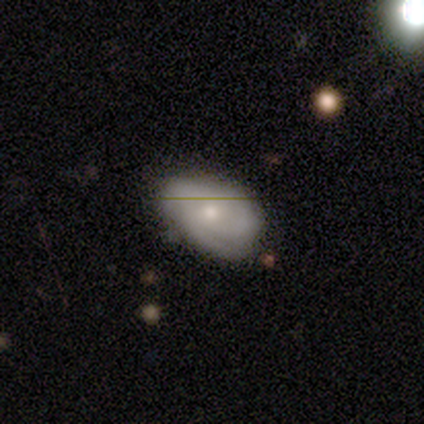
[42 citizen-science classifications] Smooth or featured: featured or disk — 50% (smooth — 40%)
Edge-on disk: no — 95% (yes — 5%)
Bar: no — 70% (weak — 25%)
Spiral arms: yes — 85% (no — 15%)
Spiral winding: tight — 71% (medium — 18%)
Spiral arm count: 2 — 41% (3 — 35%)
Bulge size: moderate — 55% (small — 40%)
Merging: none — 55% (minor disturbance — 32%)